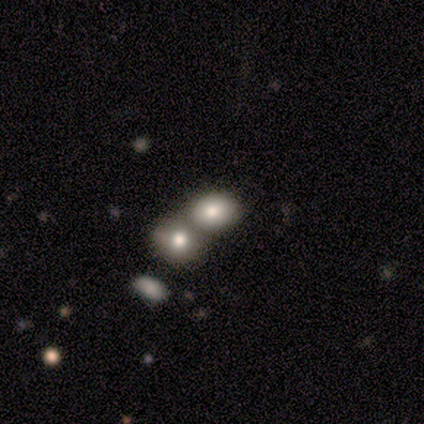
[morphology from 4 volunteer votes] Volunteers were most divided on "smooth or featured": smooth: 75%, star or artifact: 25%, featured or disk: 0%. More confident: how rounded — in between (100%); merging — merger (100%).